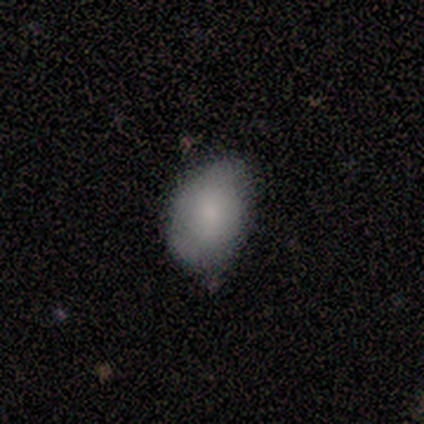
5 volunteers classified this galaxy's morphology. Overall: smooth (60%; featured or disk 40%). How rounded: in between (67%; round 33%). Merging: none (60%; minor disturbance 40%).